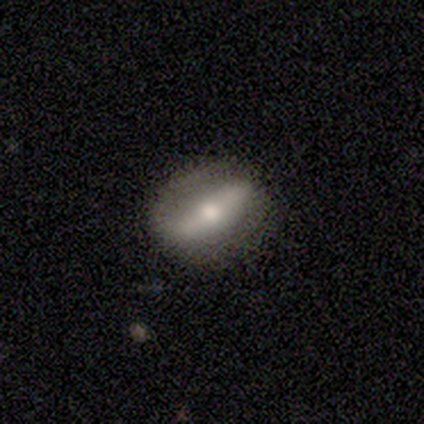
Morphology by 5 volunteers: Volunteers were most divided on "spiral winding" (2-way tie): tight: 50%, medium: 50%, loose: 0%; "bulge size" (3-way tie): large: 33%, moderate: 33%, small: 33%, dominant: 0%, none: 0%. More confident: spiral arm count — 2 (100%); merging — none (100%); smooth or featured — featured or disk (80%); edge-on disk — no (75%); bar — strong (67%); spiral arms — yes (67%).